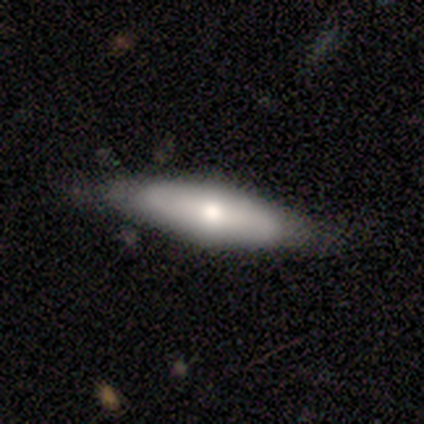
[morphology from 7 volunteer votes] A smooth galaxy with no disk features (43%, tied with featured or disk) that is cigar-shaped (67%). Merging: none (100%).